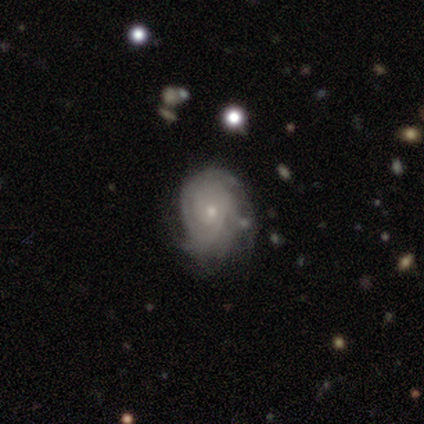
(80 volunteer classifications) Smooth or featured? featured or disk (78%)
Edge-on disk? no (94%)
Bar? no (90%)
Spiral arms? yes (83%)
Spiral winding? tight (81%)
Spiral arm count? can't tell (62%)
Bulge size? small (72%)
Merging? none (34%)